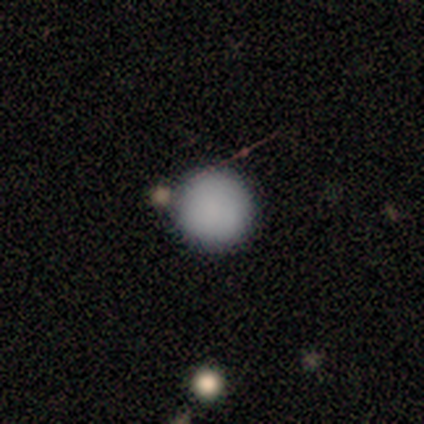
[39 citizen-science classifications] Q: Smooth or featured?
A: smooth (97%); runner-up: featured or disk (3%)
Q: How rounded?
A: round (95%); runner-up: in between (5%)
Q: Merging?
A: none (79%); runner-up: merger (10%)